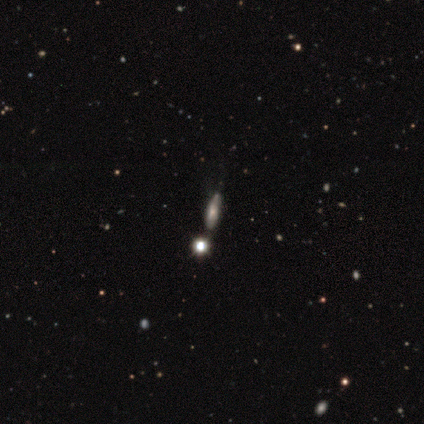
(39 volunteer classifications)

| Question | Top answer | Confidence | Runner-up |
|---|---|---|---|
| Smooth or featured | smooth | 51% | featured or disk (31%) |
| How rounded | in between | 55% | cigar-shaped (35%) |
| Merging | none | 41% | merger (12%) |